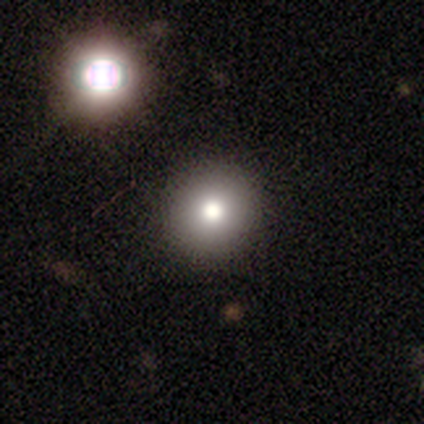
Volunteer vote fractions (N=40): Smooth or featured? smooth (75%)
How rounded? round (93%)
Merging? none (47%)